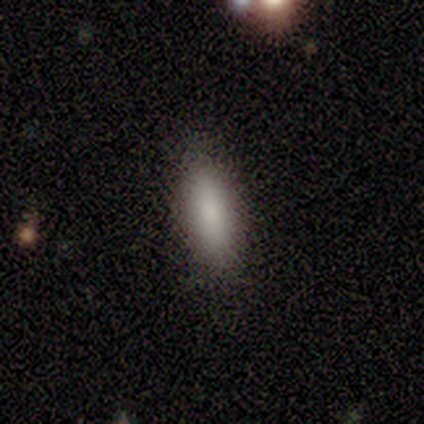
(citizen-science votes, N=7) This appears to be a smooth galaxy with no disk features (100%) that is cigar-shaped (57%). Merging: none (100%).